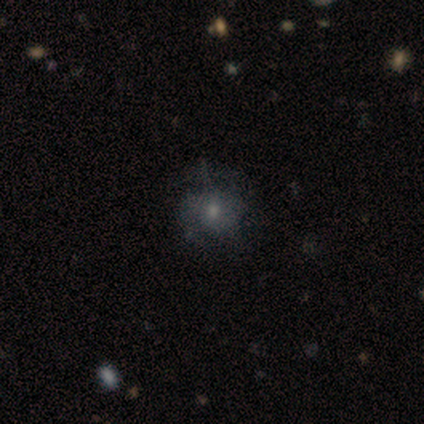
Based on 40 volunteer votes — Smooth or featured? 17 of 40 (42%) said smooth. How rounded? 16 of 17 (94%) said round. Merging? 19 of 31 (61%) said none.